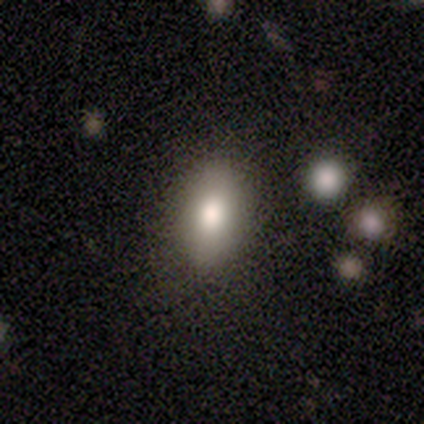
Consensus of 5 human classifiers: Smooth or featured?
  - smooth: 60% *
  - featured or disk: 20%
  - star or artifact: 20%
How rounded?
  - in between: 100% *
  - round: 0%
  - cigar-shaped: 0%
Merging?
  - none: 100% *
  - minor disturbance: 0%
  - major disturbance: 0%
  - merger: 0%